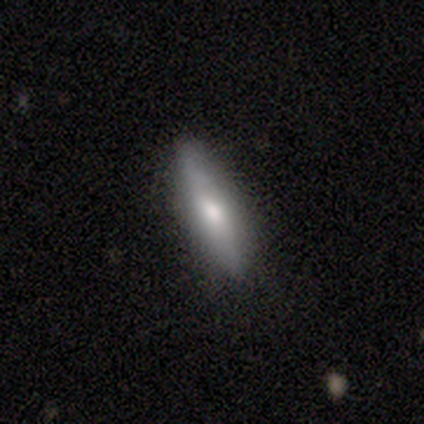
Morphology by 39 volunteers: A smooth galaxy with no disk features (62%) that is cigar-shaped (67%).

Vote fractions:
- Smooth or featured? smooth: 62% / featured or disk: 31% / star or artifact: 8%
- How rounded? cigar-shaped: 67% / in between: 33% / round: 0%
- Merging? none: 78% / minor disturbance: 22% / major disturbance: 0% / merger: 0%